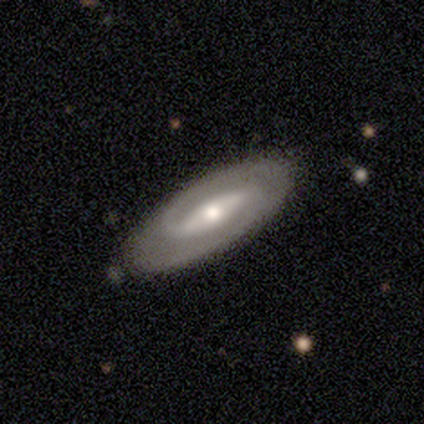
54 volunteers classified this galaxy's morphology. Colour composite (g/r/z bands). It shows a featured or disk galaxy (85%) with a strong bar (55%), 2 (80%) medium (57%) spiral arms (95%) and a moderate central bulge (69%). Merging: none (81%).